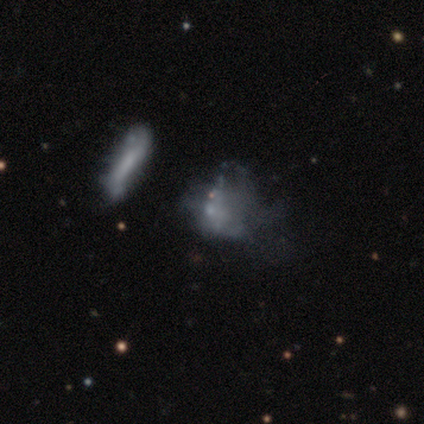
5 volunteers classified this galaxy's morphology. smooth-or-featured: smooth: 60% | featured or disk: 20% | star or artifact: 20%
  how-rounded: cigar-shaped: 67% | in between: 33% | round: 0%
  merging: major disturbance: 75% | none: 25% | minor disturbance: 0% | merger: 0%